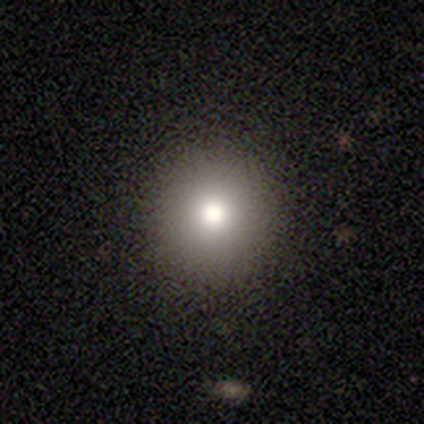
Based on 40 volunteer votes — This is likely a smooth galaxy (60%). How rounded: clearly round (92%). Merging: clearly none (97%).